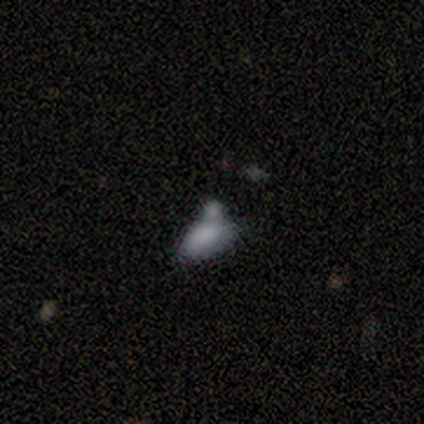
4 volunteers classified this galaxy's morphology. type=smooth (50%); roundness=in between (100%); merging=minor disturbance (67%).